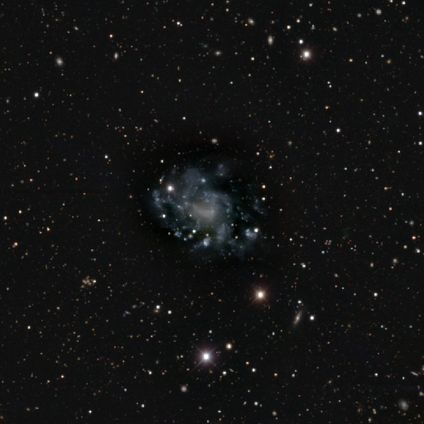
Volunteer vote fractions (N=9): featured or disk 78%, star or artifact 22%, smooth 0%. Down the decision tree: edge-on disk — no (100%); bar — no (86%); spiral arms — no (57%); bulge size — none (86%); merging — none (57%).